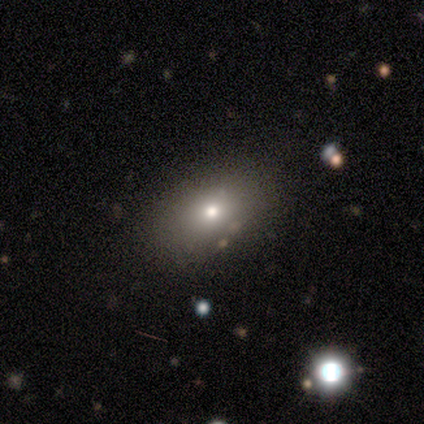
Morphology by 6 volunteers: smooth_or_featured: smooth (p=0.67) [alt: star or artifact p=0.33]
how_rounded: in between (p=0.75) [alt: round p=0.25]
merging: none (p=1.00)